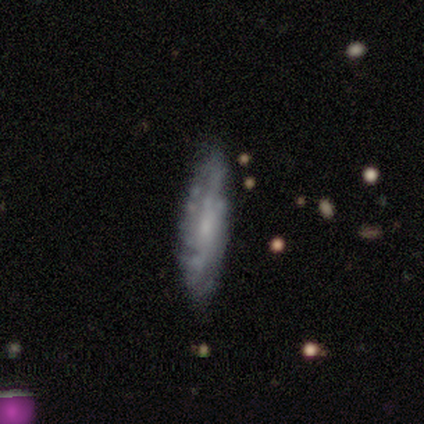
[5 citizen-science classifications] Smooth or featured: featured or disk — 100%
Edge-on disk: no — 60% (yes — 40%)
Bar: weak — 67% (no — 33%)
Spiral arms: yes — 100%
Spiral winding: medium — 100%
Spiral arm count: 2 — 33% (tied with 3 — 33%; can't tell — 33%)
Bulge size: moderate — 67% (small — 33%)
Merging: none — 100%